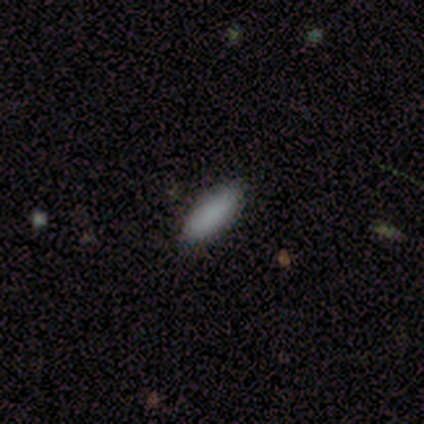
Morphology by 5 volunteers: smooth 80%, featured or disk 20%, star or artifact 0%. Down the decision tree: how rounded — in between (75%); merging — none (60%).